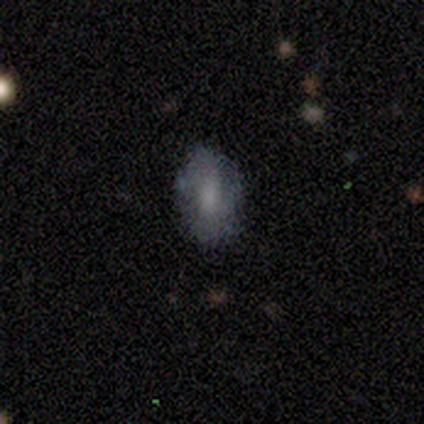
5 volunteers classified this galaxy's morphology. type=smooth (80%); roundness=in between (100%); merging=none (60%).